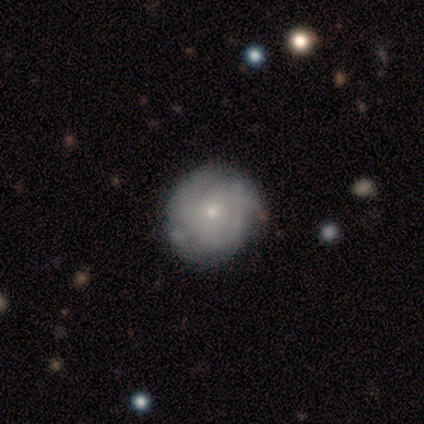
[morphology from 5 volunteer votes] featured or disk 60%, smooth 40%, star or artifact 0%. Down the decision tree: edge-on disk — no (100%); bar — no (100%); spiral arms — yes (100%); spiral arm count — 3 (67%); spiral winding — tight (100%); bulge size — small (100%); merging — none (60%).